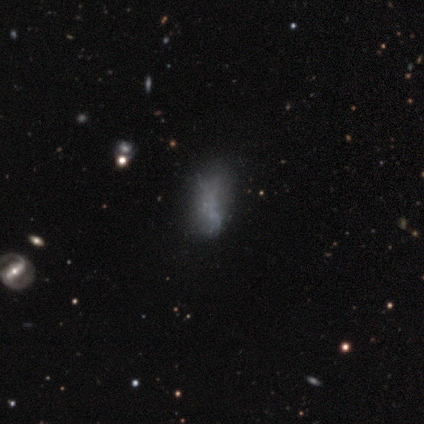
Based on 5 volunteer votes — Smooth or featured? 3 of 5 (60%) said smooth. How rounded? 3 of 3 (100%) said in between. Merging? 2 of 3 (67%) said minor disturbance.